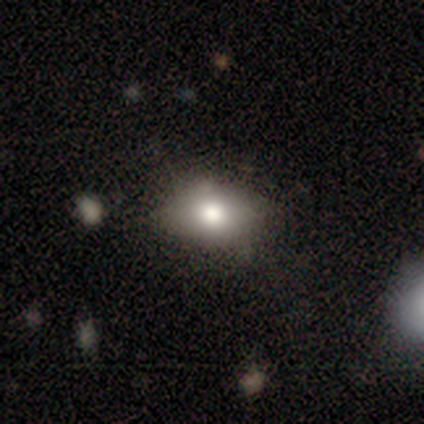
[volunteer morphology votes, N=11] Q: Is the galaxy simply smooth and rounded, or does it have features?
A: smooth — 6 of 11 (55%).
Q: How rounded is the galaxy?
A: in between — 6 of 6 (100%).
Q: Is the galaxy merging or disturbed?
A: none — 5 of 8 (62%).